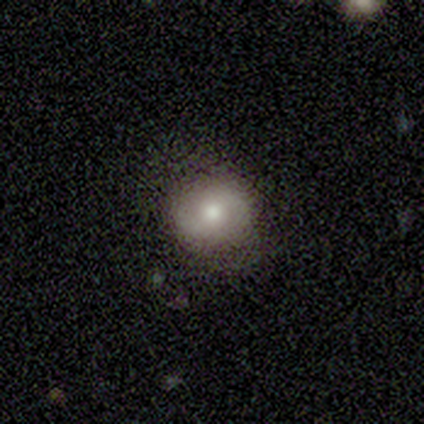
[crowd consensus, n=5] Volunteers were most divided on "smooth or featured" (2-way tie): smooth: 40%, featured or disk: 40%, star or artifact: 20%. More confident: how rounded — round (100%); merging — none (100%).